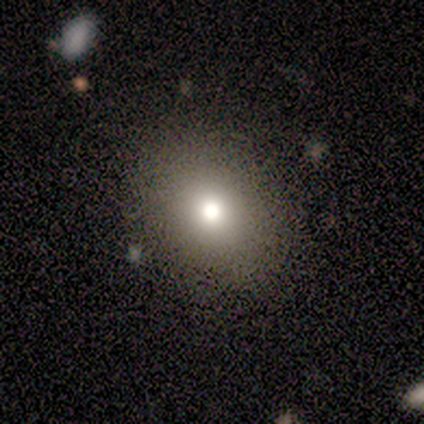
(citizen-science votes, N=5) Smooth or featured: smooth — 80% (star or artifact — 20%)
How rounded: round — 75% (in between — 25%)
Merging: none — 100%